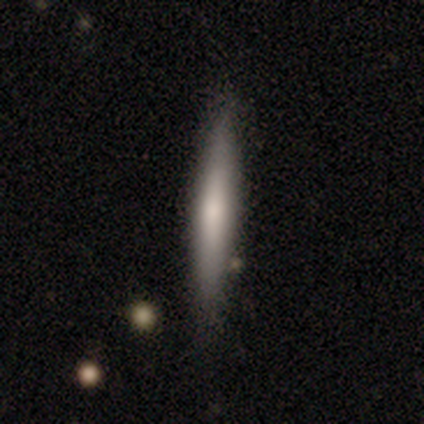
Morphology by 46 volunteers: Smooth or featured? 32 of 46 (70%) said smooth. How rounded? 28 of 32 (88%) said cigar-shaped. Merging? 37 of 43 (86%) said none.